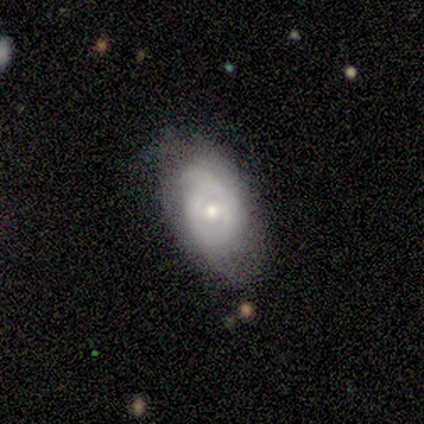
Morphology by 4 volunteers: Smooth or featured? 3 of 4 (75%) said smooth. How rounded? 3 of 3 (100%) said in between. Merging? 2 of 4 (50%) said none.